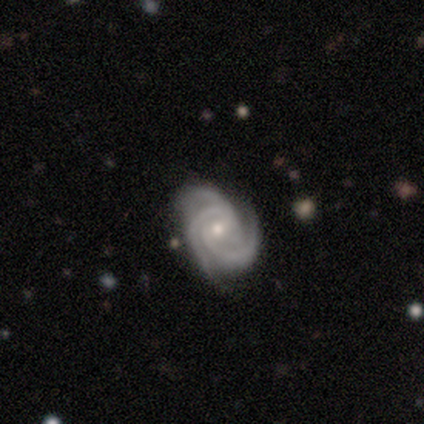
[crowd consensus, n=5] Smooth or featured? 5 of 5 (100%) said featured or disk. Edge-on disk? 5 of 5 (100%) said no. Bar? 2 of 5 (40%, tied with no) said weak. Spiral arms? 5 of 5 (100%) said yes. Spiral winding? 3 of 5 (60%) said tight. Spiral arm count? 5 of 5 (100%) said 3. Bulge size? 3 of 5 (60%) said small. Merging? 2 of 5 (40%, tied with major disturbance) said none.